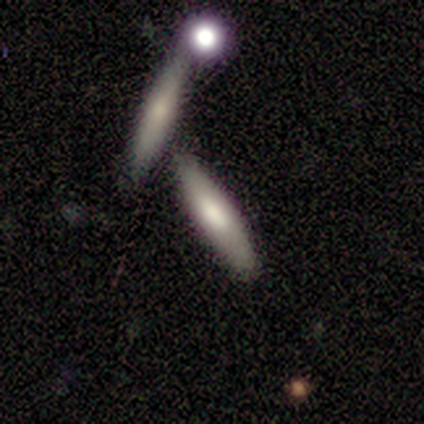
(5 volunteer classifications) Smooth or featured?
  - smooth: 80% *
  - featured or disk: 20%
  - star or artifact: 0%
How rounded?
  - cigar-shaped: 100% *
  - round: 0%
  - in between: 0%
Merging?
  - none: 80% *
  - minor disturbance: 20%
  - major disturbance: 0%
  - merger: 0%